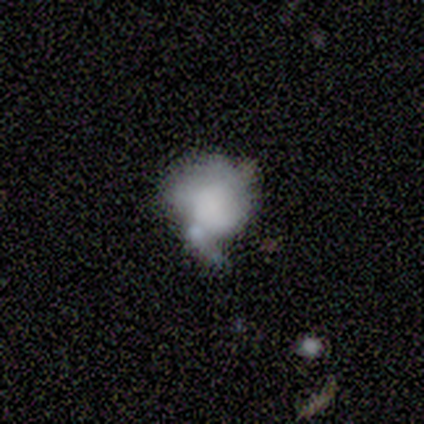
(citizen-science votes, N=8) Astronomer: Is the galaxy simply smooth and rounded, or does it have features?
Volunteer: smooth — 75%.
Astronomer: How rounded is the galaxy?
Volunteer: in between — 83%.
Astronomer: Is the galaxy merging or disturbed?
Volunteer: minor disturbance — 57%.